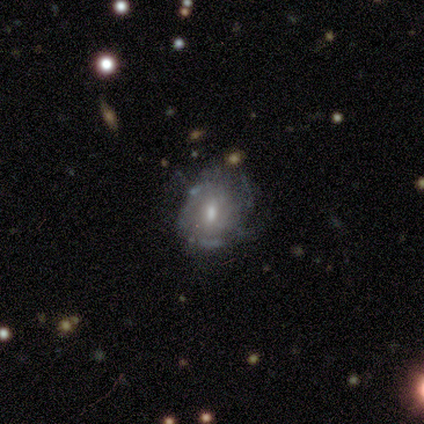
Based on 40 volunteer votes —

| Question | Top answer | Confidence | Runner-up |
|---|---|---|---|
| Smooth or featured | featured or disk | 80% | smooth (12%) |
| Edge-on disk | no | 97% | yes (3%) |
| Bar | no | 61% | weak (26%) |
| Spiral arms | yes | 61% | no (39%) |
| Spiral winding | medium | 58% | tight (32%) |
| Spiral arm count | can't tell | 53% | more than 4 (16%) |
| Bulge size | moderate | 74% | small (13%) |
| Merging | minor disturbance | 43% | none (32%) |